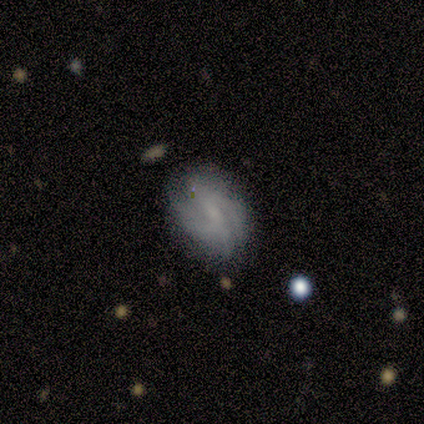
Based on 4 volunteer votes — Smooth or featured? featured or disk (75%)
Edge-on disk? no (100%)
Bar? no (67%)
Spiral arms? no (67%)
Bulge size? small (67%)
Merging? none (75%)